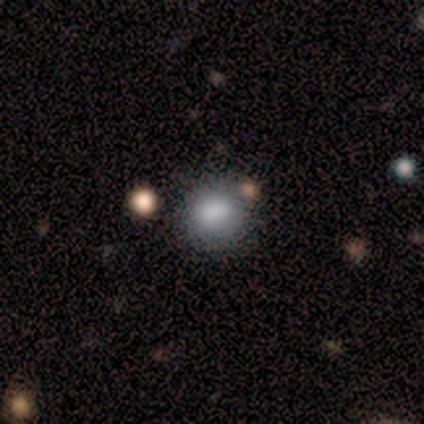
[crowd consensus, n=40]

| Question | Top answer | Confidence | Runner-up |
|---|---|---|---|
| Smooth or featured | smooth | 88% | featured or disk (10%) |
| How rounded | round | 69% | in between (31%) |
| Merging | none | 51% | merger (15%) |